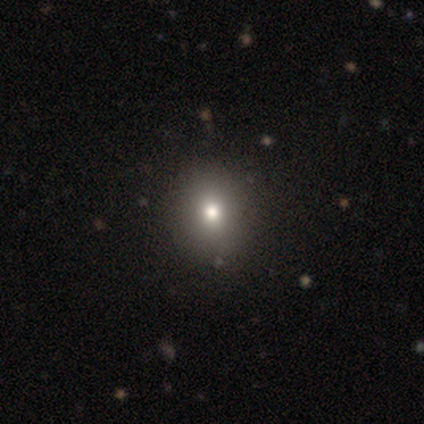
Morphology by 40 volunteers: smooth 80%, star or artifact 12%, featured or disk 8%. Down the decision tree: how rounded — round (59%); merging — none (66%).